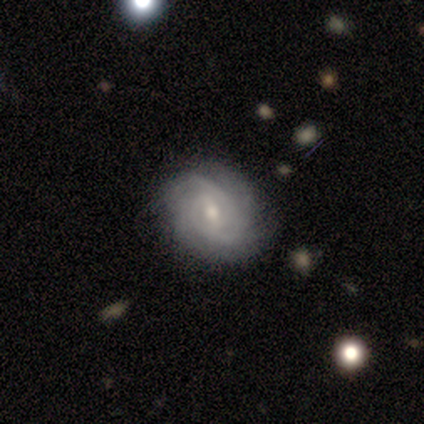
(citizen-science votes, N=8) Volunteers were most divided on "spiral winding": tight: 50%, medium: 38%, loose: 12%. More confident: smooth or featured — featured or disk (100%); edge-on disk — no (100%); bar — weak (100%); spiral arms — yes (100%); merging — none (88%); bulge size — moderate (62%); spiral arm count — 2 (50%).